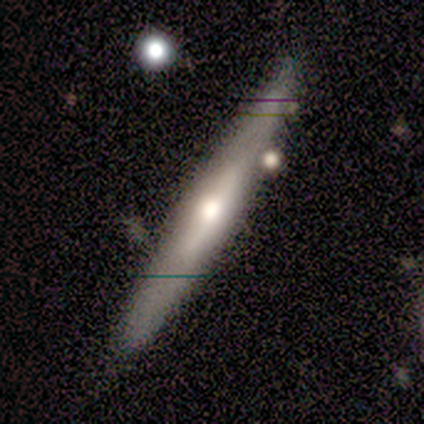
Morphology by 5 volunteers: type=featured or disk (80%); edge-on=yes (100%); edge-on bulge=rounded (75%); merging=none (80%).